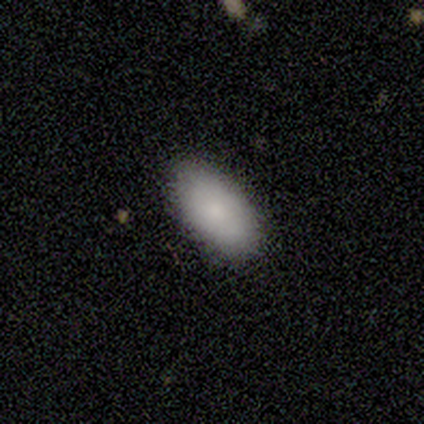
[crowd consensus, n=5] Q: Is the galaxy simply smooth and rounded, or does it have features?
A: smooth — 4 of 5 (80%).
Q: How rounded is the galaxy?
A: in between — 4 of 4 (100%).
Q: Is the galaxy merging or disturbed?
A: none — 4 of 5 (80%).